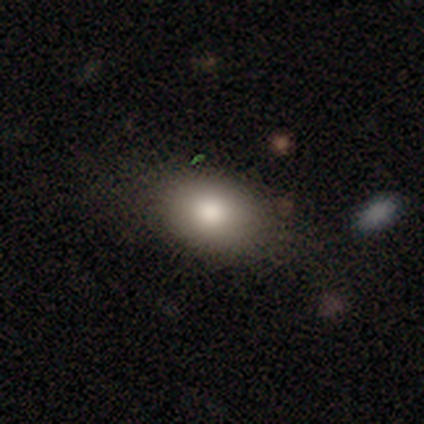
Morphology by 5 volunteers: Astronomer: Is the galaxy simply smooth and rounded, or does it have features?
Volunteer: smooth — 100%.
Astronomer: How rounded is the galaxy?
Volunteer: round — 40%, tied with in between at 40%.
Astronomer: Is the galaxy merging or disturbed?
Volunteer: none — 60% (runner-up: minor disturbance, 40%).